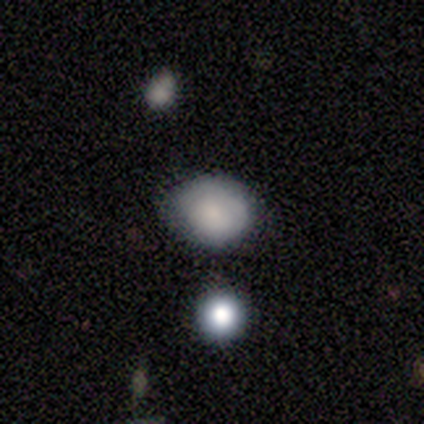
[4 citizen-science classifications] smooth 100%, featured or disk 0%, star or artifact 0%. Down the decision tree: how rounded — round (75%); merging — none (75%).